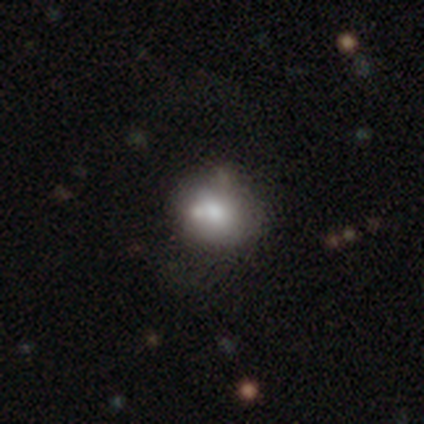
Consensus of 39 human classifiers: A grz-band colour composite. It shows a smooth galaxy with no disk features (64%) that is round (72%). Merging: none (51%).